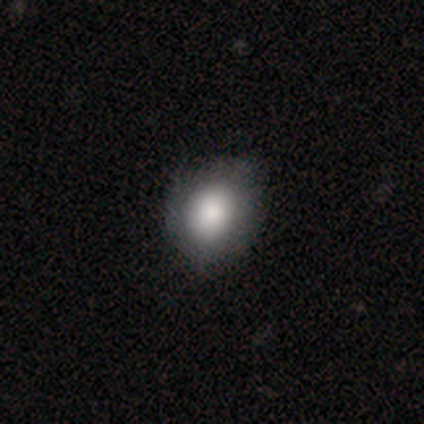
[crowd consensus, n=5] Q: Smooth or featured?
A: smooth (40%); tied with: featured or disk (40%)
Q: How rounded?
A: round (100%)
Q: Merging?
A: none (75%); runner-up: minor disturbance (25%)